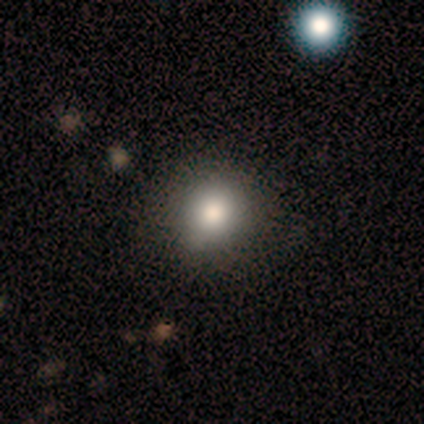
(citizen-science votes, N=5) Morphology: type=smooth (100%); roundness=round (100%); merging=none (100%).